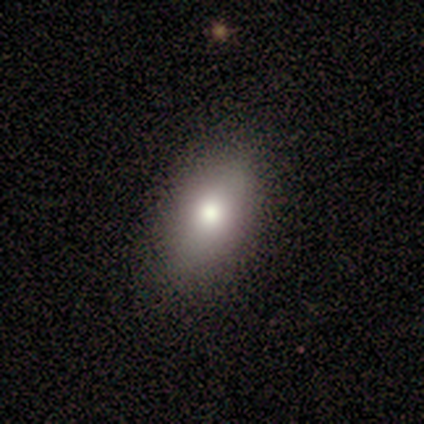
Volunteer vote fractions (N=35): Smooth or featured: smooth — 83% (featured or disk — 9%)
How rounded: in between — 93% (cigar-shaped — 7%)
Merging: none — 78% (minor disturbance — 22%)